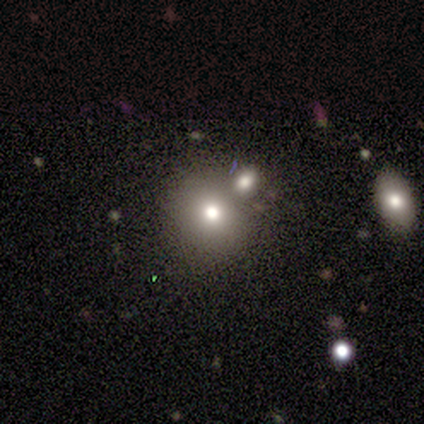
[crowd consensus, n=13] Smooth or featured?
  - smooth: 92% *
  - featured or disk: 8%
  - star or artifact: 0%
How rounded?
  - round: 92% *
  - in between: 8%
  - cigar-shaped: 0%
Merging?
  - none: 77% *
  - merger: 15%
  - minor disturbance: 8%
  - major disturbance: 0%